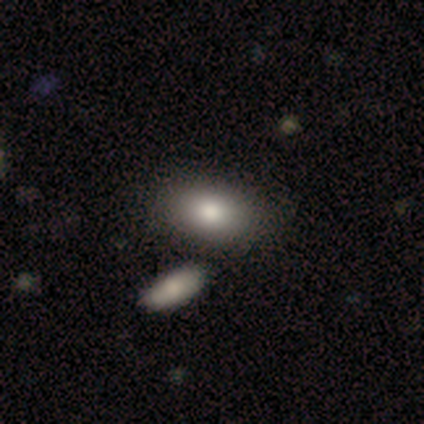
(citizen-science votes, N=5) smooth 100%, featured or disk 0%, star or artifact 0%. Down the decision tree: how rounded — in between (80%); merging — none (60%).